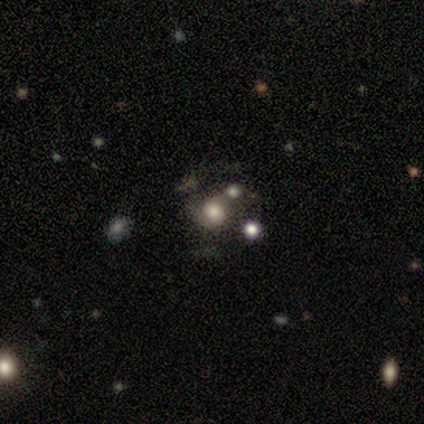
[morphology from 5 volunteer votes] This is likely a featured or disk galaxy (60%). It is clearly not viewed edge-on (100%). Bar: likely no (67%). Spiral arm pattern: clearly yes (100%). Spiral arm count: marginally 1 (33%, tied with 2 and can't tell). Spiral winding: likely medium (67%). Central bulge: marginally dominant (33%, tied with large and moderate). Merging: marginally merger (40%).